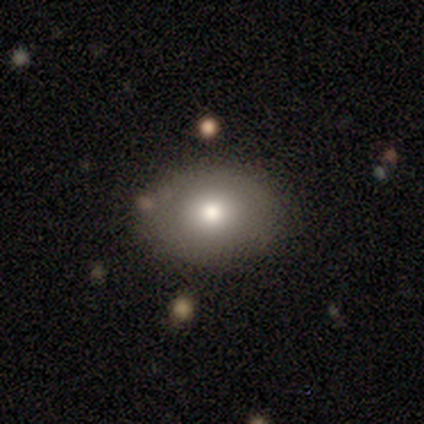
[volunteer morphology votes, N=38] Smooth or featured?
  - smooth: 76% *
  - featured or disk: 16%
  - star or artifact: 8%
How rounded?
  - in between: 55% *
  - round: 45%
  - cigar-shaped: 0%
Merging?
  - none: 83% *
  - minor disturbance: 11%
  - major disturbance: 3%
  - merger: 3%